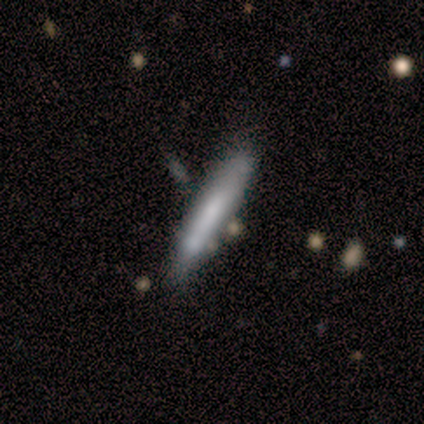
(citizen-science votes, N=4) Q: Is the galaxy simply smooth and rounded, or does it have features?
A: smooth — 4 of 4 (100%).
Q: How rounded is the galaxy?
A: cigar-shaped — 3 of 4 (75%).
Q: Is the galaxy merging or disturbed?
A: none — 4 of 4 (100%).